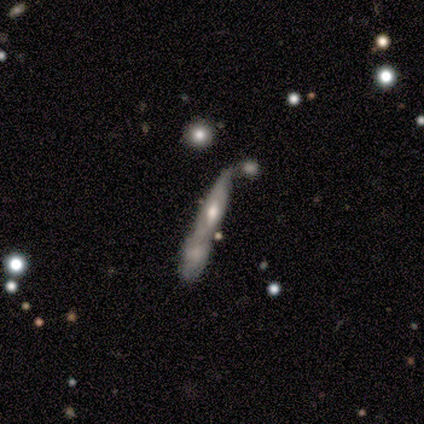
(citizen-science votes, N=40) This is likely a featured or disk galaxy (65%). It is likely viewed edge-on (62%). Edge-on bulge: likely rounded (62%). Merging: likely merger (63%).